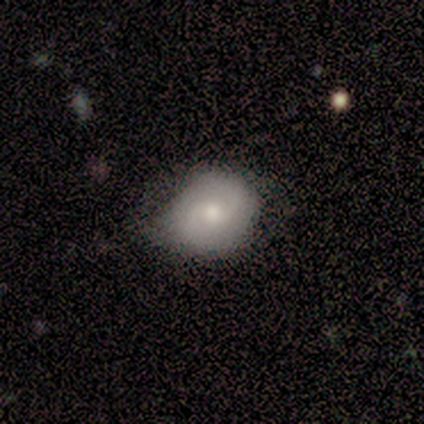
Volunteers were most divided on "merging": minor disturbance: 60%, none: 40%, major disturbance: 0%, merger: 0%. More confident: smooth or featured — smooth (80%); how rounded — round (75%).